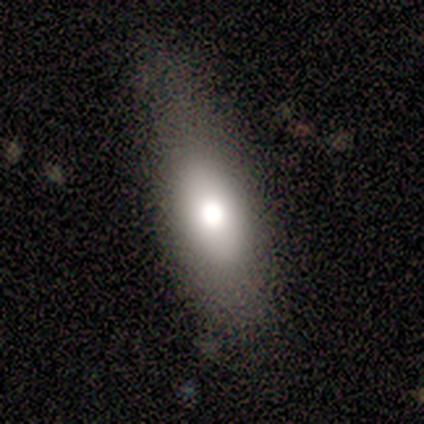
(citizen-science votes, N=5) smooth 100%, featured or disk 0%, star or artifact 0%. Down the decision tree: how rounded — in between (80%); merging — none (80%).